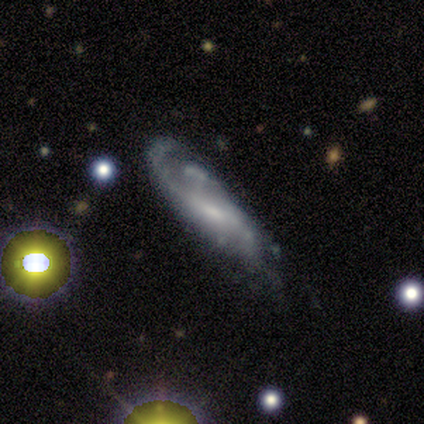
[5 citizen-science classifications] Volunteers were most divided on "bulge size" (2-way tie): small: 40%, none: 40%, moderate: 20%, dominant: 0%, large: 0%. More confident: smooth or featured — featured or disk (100%); edge-on disk — no (100%); spiral arms — yes (100%); bar — weak (80%); spiral winding — medium (60%); merging — minor disturbance (60%); spiral arm count — 1 (60%).